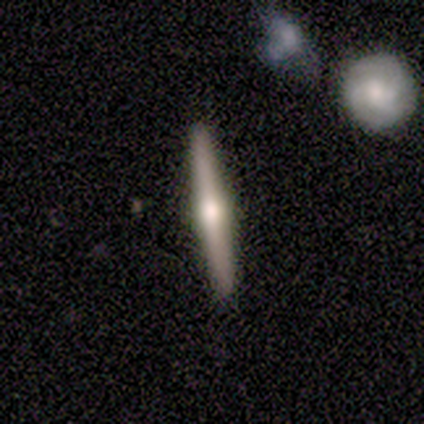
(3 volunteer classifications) Overall: featured or disk (67%; smooth 33%). Edge-on disk: yes (100%). Edge-on bulge: rounded (100%). Merging: none (100%).